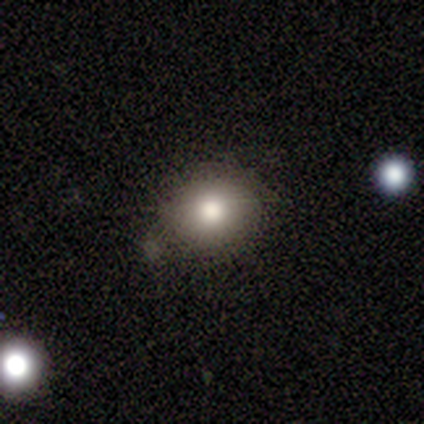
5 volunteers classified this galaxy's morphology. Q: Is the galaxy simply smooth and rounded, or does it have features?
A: smooth — 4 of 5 (80%).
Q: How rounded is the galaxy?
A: round — 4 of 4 (100%).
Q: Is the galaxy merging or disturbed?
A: none — 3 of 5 (60%).